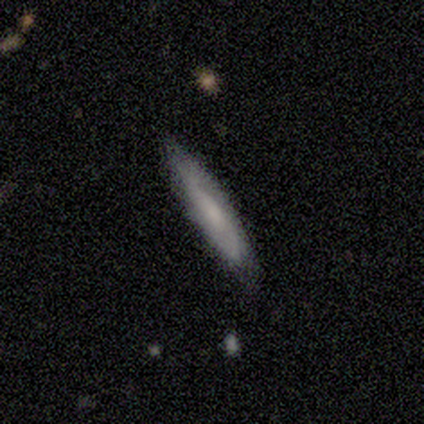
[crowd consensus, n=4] smooth_or_featured: featured or disk (p=1.00)
disk_edge_on: yes (p=0.50) [tied with: no p=0.50]
edge_on_bulge: none (p=0.50) [tied with: rounded p=0.50]
merging: none (p=0.75) [alt: minor disturbance p=0.25]